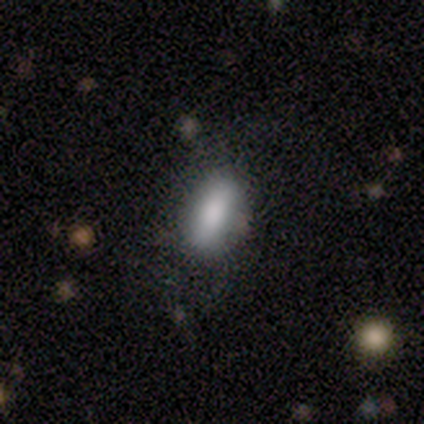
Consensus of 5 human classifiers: A smooth galaxy with no disk features (100%) that is in between round and cigar-shaped (100%). Merging: none (100%).